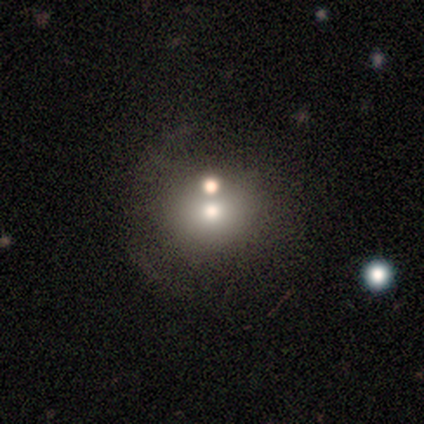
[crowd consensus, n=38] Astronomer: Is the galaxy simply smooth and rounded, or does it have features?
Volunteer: smooth — 50% (runner-up: featured or disk, 34%).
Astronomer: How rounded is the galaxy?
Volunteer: round — 89%.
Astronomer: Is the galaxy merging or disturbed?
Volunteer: none — 38% (runner-up: merger, 28%).